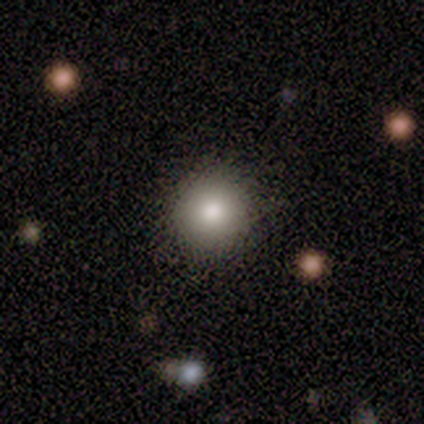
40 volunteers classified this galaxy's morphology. This appears to be a smooth galaxy with no disk features (75%) that is round (97%). Merging: none (86%).